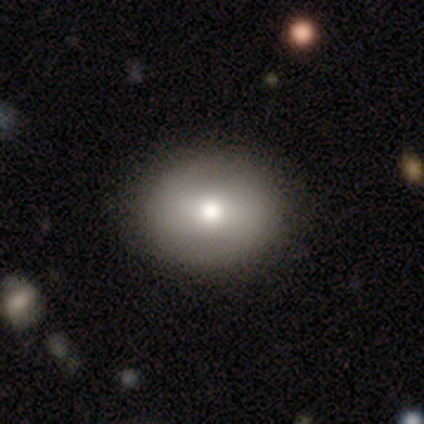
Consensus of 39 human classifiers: Smooth or featured? 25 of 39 (64%) said smooth. How rounded? 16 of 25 (64%) said round. Merging? 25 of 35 (71%) said none.